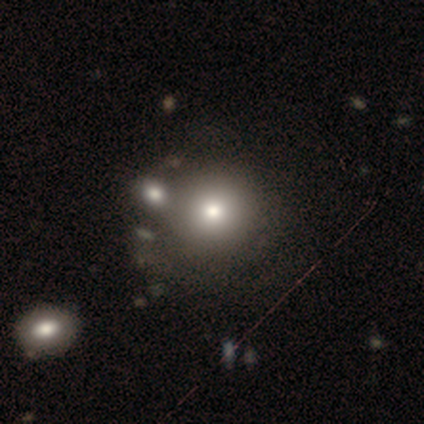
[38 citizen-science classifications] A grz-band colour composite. It shows a smooth galaxy with no disk features (82%) that is round (94%). Merging: none (53%).